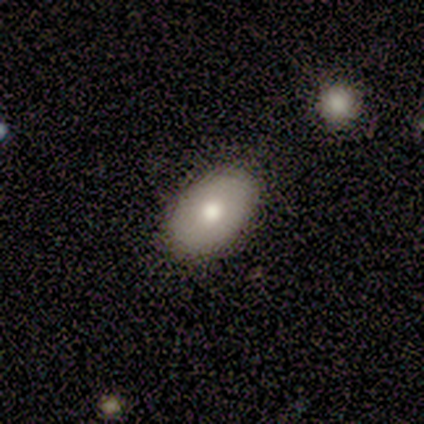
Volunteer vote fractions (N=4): Smooth or featured: smooth — 75% (featured or disk — 25%)
How rounded: in between — 100%
Merging: none — 75% (minor disturbance — 25%)